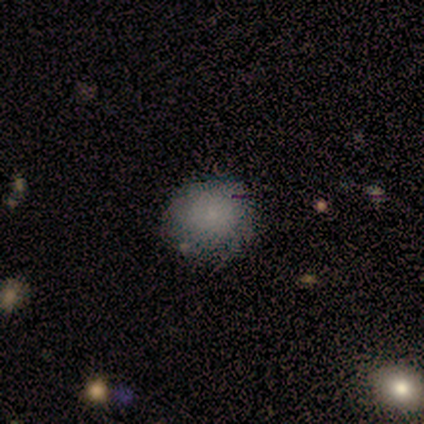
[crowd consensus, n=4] smooth-or-featured: smooth: 100% | featured or disk: 0% | star or artifact: 0%
  how-rounded: round: 75% | in between: 25% | cigar-shaped: 0%
  merging: none: 100% | minor disturbance: 0% | major disturbance: 0% | merger: 0%